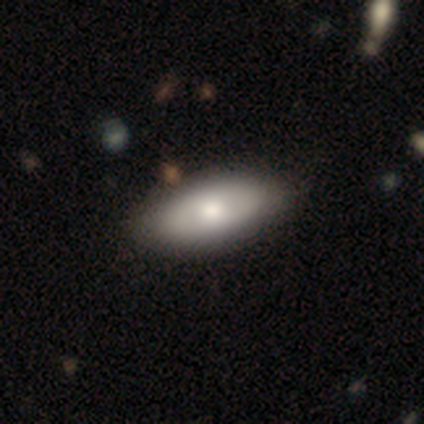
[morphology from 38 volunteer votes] Q: Smooth or featured?
A: smooth (61%); runner-up: featured or disk (34%)
Q: How rounded?
A: in between (83%); runner-up: round (9%)
Q: Merging?
A: none (58%); runner-up: minor disturbance (8%)